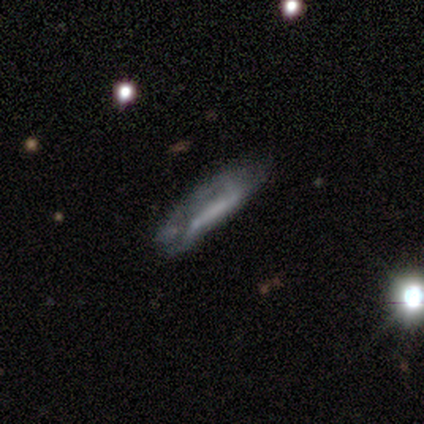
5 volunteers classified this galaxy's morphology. A smooth galaxy with no disk features (60%) that is cigar-shaped (100%). Merging: none (80%).